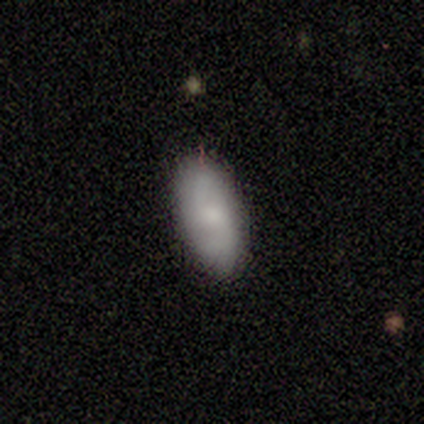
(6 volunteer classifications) A smooth galaxy with no disk features (50%, tied with featured or disk) that is in between round and cigar-shaped (67%). Merging: none (100%).